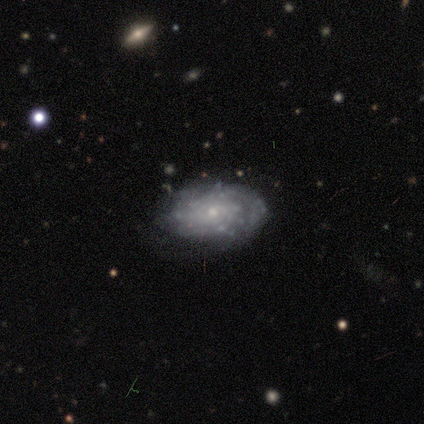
A featured or disk galaxy (100%) with no bar (67%), tight (80%) spiral arms (83%) and a small central bulge (50%).

Vote fractions:
- Smooth or featured? featured or disk: 100% / smooth: 0% / star or artifact: 0%
- Edge-on disk? no: 100% / yes: 0%
- Bar? no: 67% / weak: 33% / strong: 0%
- Spiral arms? yes: 83% / no: 17%
- Spiral winding? tight: 80% / medium: 20% / loose: 0%
- Spiral arm count? can't tell: 60% / 3: 20% / more than 4: 20% / 1: 0% / 2: 0% / 4: 0%
- Bulge size? small: 50% / moderate: 33% / none: 17% / dominant: 0% / large: 0%
- Merging? none: 67% / minor disturbance: 33% / major disturbance: 0% / merger: 0%